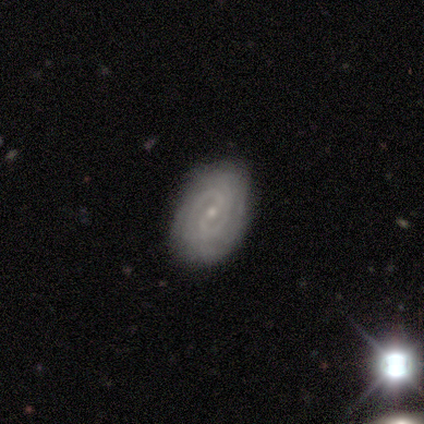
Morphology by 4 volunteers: smooth-or-featured: featured or disk: 100% | smooth: 0% | star or artifact: 0%
  disk-edge-on: no: 100% | yes: 0%
    bar: weak: 50% (tied) | no: 50% (tied) | strong: 0%
    has-spiral-arms: yes: 100% | no: 0%
      spiral-winding: tight: 100% | medium: 0% | loose: 0%
      spiral-arm-count: 2: 50% (tied) | can't tell: 50% (tied) | 1: 0% | 3: 0% | 4: 0% | more than 4: 0%
    bulge-size: small: 100% | dominant: 0% | large: 0% | moderate: 0% | none: 0%
  merging: none: 100% | minor disturbance: 0% | major disturbance: 0% | merger: 0%